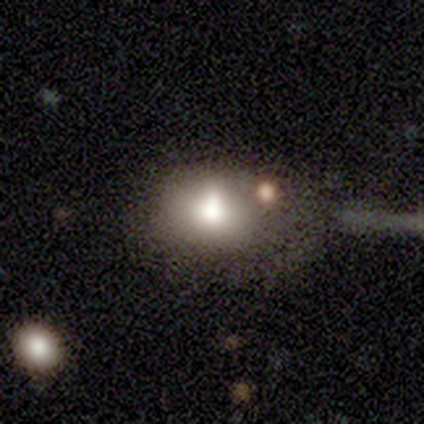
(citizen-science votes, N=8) smooth-or-featured: smooth: 88% | star or artifact: 12% | featured or disk: 0%
  how-rounded: round: 57% | in between: 43% | cigar-shaped: 0%
  merging: none: 43% | minor disturbance: 29% | major disturbance: 14% | merger: 14%